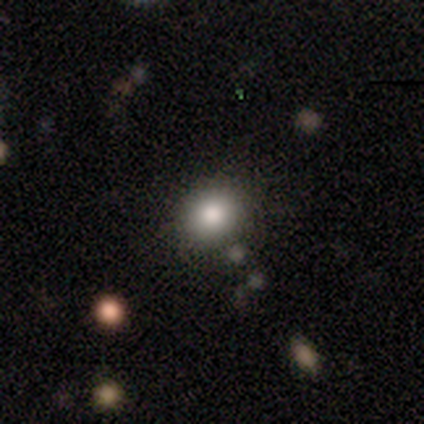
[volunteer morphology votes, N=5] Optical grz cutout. It shows a smooth galaxy with no disk features (60%) that is round (67%). Merging: none (100%).